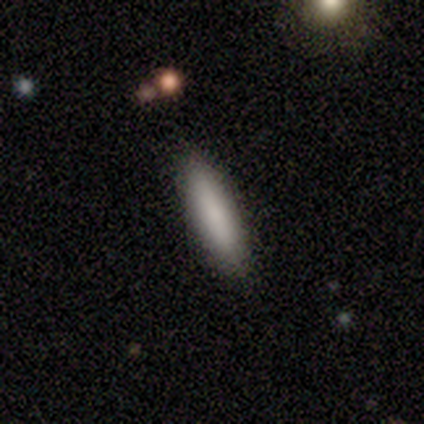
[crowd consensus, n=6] This appears to be a smooth galaxy with no disk features (67%) that is in between round and cigar-shaped (50%, tied with cigar-shaped). Merging: none (83%).